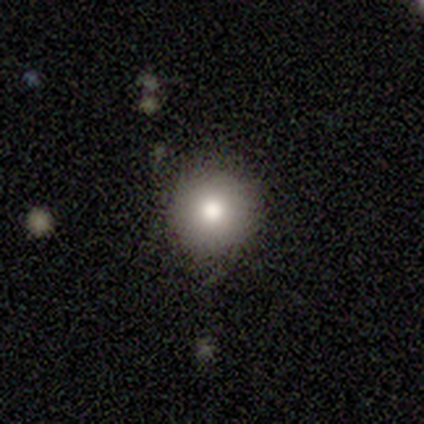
This appears to be a smooth galaxy with no disk features (100%) that is round (100%). Merging: none (75%).